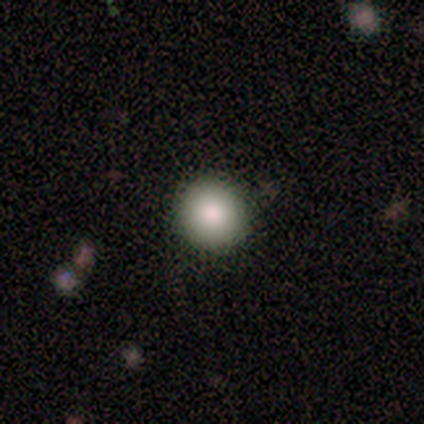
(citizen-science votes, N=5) A smooth galaxy with no disk features (60%) that is round (100%). Merging: none (100%).